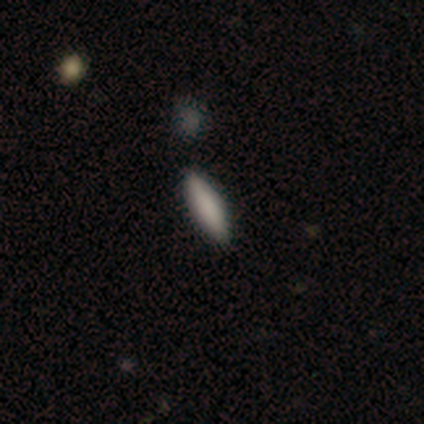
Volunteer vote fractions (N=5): smooth-or-featured: smooth: 100% | featured or disk: 0% | star or artifact: 0%
  how-rounded: in between: 60% | cigar-shaped: 40% | round: 0%
  merging: none: 80% | minor disturbance: 20% | major disturbance: 0% | merger: 0%